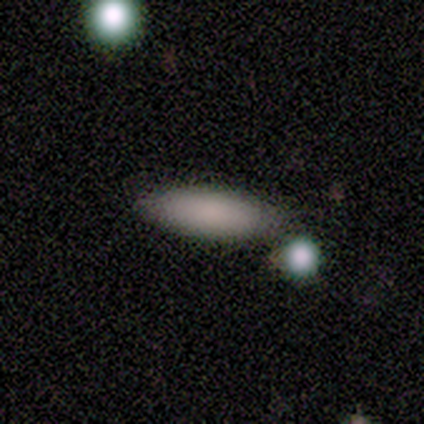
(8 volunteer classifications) Morphology: type=smooth (88%); roundness=in between (57%); merging=none (71%).